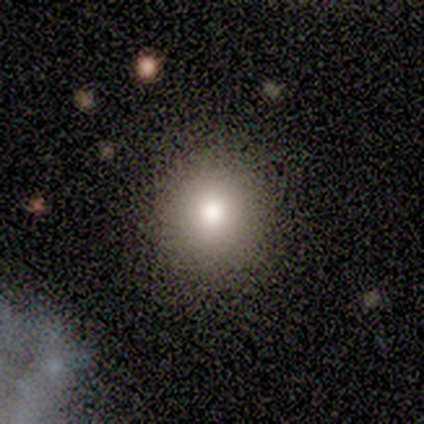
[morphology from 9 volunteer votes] This appears to be a smooth galaxy with no disk features (67%) that is round (100%). Merging: none (100%).